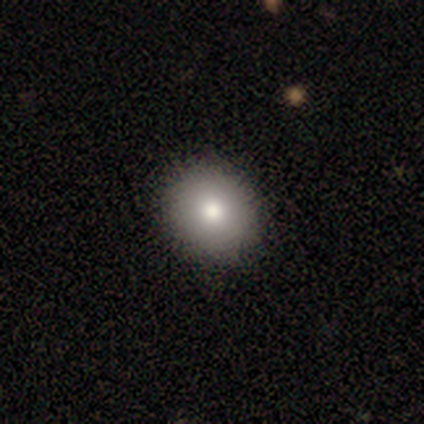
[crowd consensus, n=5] smooth 100%, featured or disk 0%, star or artifact 0%. Down the decision tree: how rounded — round (80%); merging — none (80%).